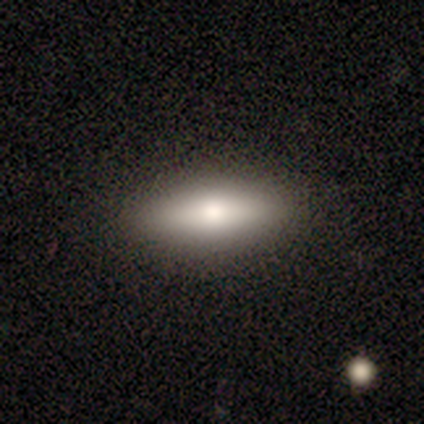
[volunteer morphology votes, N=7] This appears to be a smooth galaxy with no disk features (86%) that is in between round and cigar-shaped (67%). Merging: none (100%).